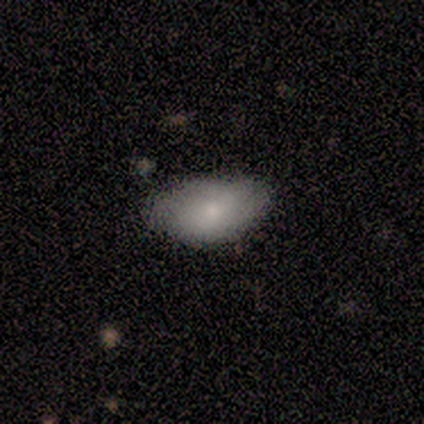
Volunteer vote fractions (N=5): Morphology: type=smooth (80%); roundness=in between (100%); merging=none (60%).